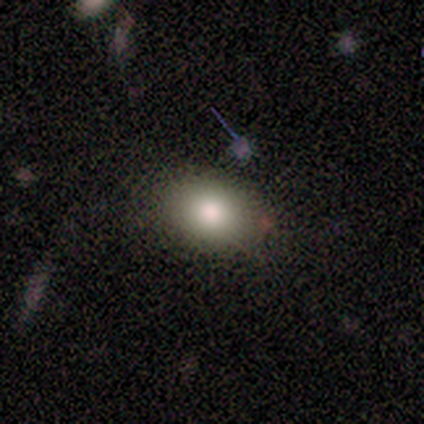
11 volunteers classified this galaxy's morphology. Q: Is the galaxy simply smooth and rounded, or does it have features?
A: smooth — 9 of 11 (82%).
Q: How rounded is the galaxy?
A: in between — 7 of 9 (78%).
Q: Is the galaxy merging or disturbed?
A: none — 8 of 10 (80%).